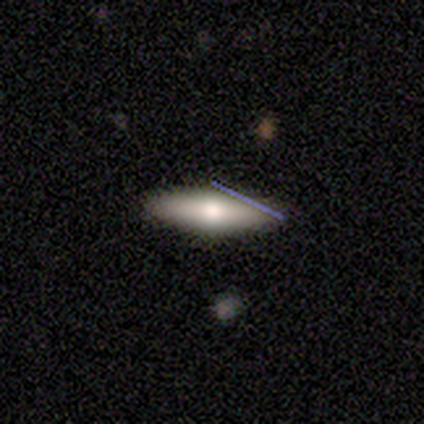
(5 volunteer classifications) A smooth galaxy with no disk features (60%) that is in between round and cigar-shaped (100%). Merging: none (100%).